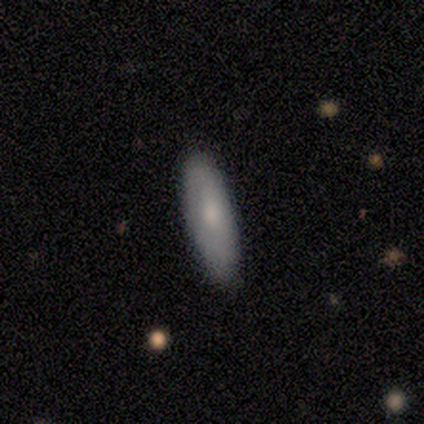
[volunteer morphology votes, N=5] This is clearly a smooth galaxy (80%). How rounded: likely in between (75%). Merging: clearly none (100%).